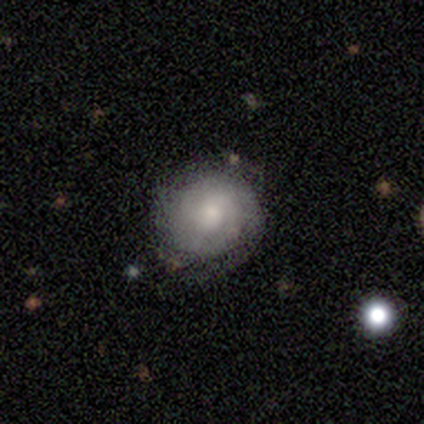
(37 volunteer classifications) This is likely a featured or disk galaxy (62%). It is clearly not viewed edge-on (100%). Bar: likely no (74%). Spiral arm pattern: clearly yes (83%). Spiral arm count: possibly 2 (47%, tied with can't tell). Spiral winding: clearly tight (95%). Central bulge: marginally small (43%). Merging: possibly none (47%).